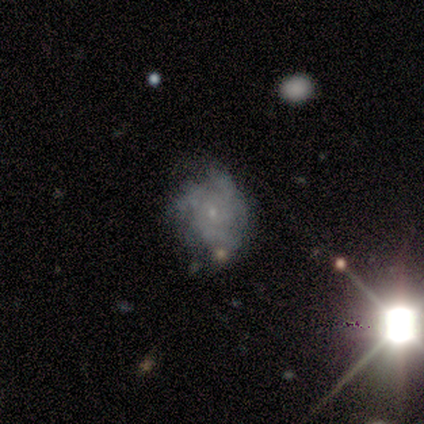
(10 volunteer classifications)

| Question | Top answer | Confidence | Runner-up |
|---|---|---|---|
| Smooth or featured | featured or disk | 70% | smooth (20%) |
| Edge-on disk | no | 100% | — |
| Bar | no | 86% | weak (14%) |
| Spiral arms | yes | 100% | — |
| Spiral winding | tight | 57% | medium (29%) |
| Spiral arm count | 3 | 71% | more than 4 (14%) |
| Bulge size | small | 57% | moderate (29%) |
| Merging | none | 44% | tied: minor disturbance (44%) |